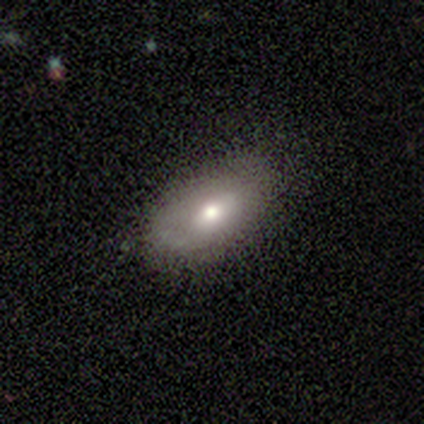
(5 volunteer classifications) Smooth or featured: smooth — 80% (featured or disk — 20%)
How rounded: in between — 100%
Merging: none — 100%